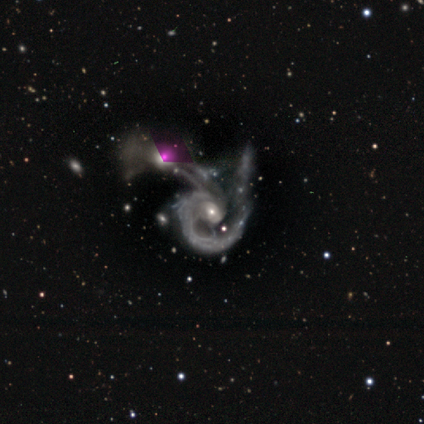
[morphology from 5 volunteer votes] Volunteers were most divided on "bar" (3-way tie): strong: 33%, weak: 33%, no: 33%. More confident: edge-on disk — no (100%); spiral arms — yes (100%); spiral winding — medium (100%); spiral arm count — 2 (67%); bulge size — moderate (67%); merging — merger (67%); smooth or featured — featured or disk (60%).